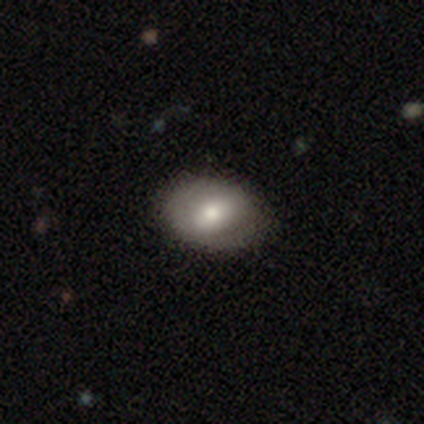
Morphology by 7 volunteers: Overall: smooth (57%; featured or disk 29%). How rounded: in between (75%). Merging: none (83%).